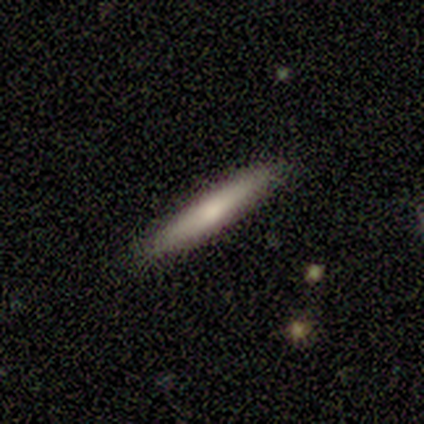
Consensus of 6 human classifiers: smooth_or_featured: smooth (p=0.83) [alt: featured or disk p=0.17]
how_rounded: cigar-shaped (p=0.80) [alt: in between p=0.20]
merging: none (p=1.00)